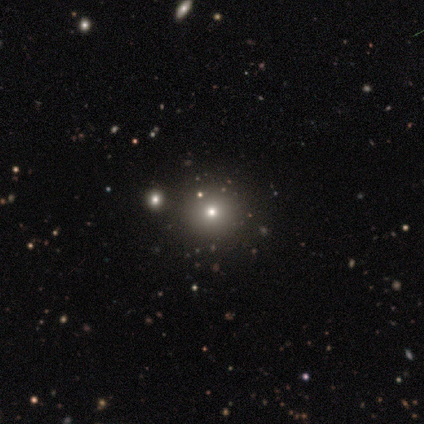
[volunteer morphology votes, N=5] Overall: smooth (40%, tied with featured or disk). How rounded: round (100%). Merging: none (75%).